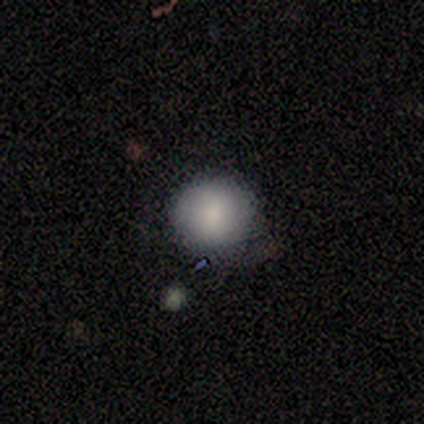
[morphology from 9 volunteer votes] A smooth galaxy with no disk features (89%) that is round (88%).

Vote fractions:
- Smooth or featured? smooth: 89% / star or artifact: 11% / featured or disk: 0%
- How rounded? round: 88% / cigar-shaped: 12% / in between: 0%
- Merging? none: 75% / minor disturbance: 25% / major disturbance: 0% / merger: 0%